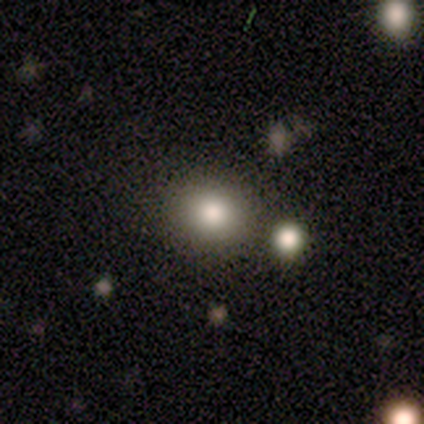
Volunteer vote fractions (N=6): This is likely a smooth galaxy (67%). How rounded: clearly round (100%). Merging: clearly none (80%).